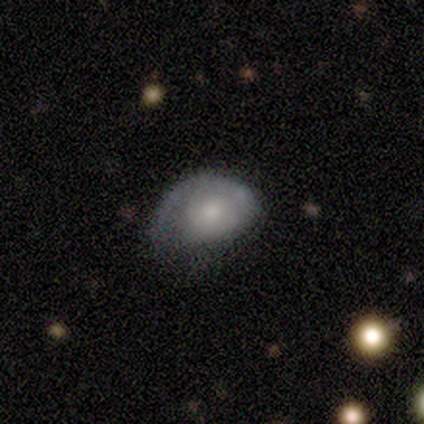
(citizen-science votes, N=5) Smooth or featured? 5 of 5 (100%) said smooth. How rounded? 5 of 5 (100%) said in between. Merging? 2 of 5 (40%, tied with minor disturbance) said none.